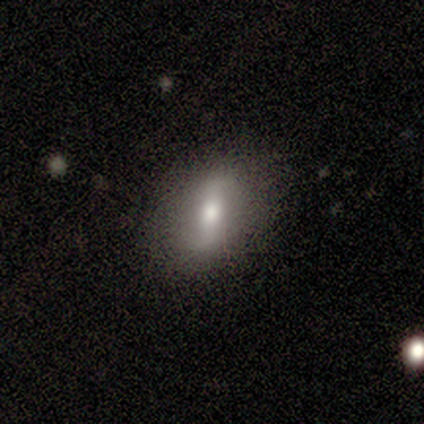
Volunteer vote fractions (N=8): Smooth or featured? 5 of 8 (62%) said smooth. How rounded? 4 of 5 (80%) said in between. Merging? 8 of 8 (100%) said none.